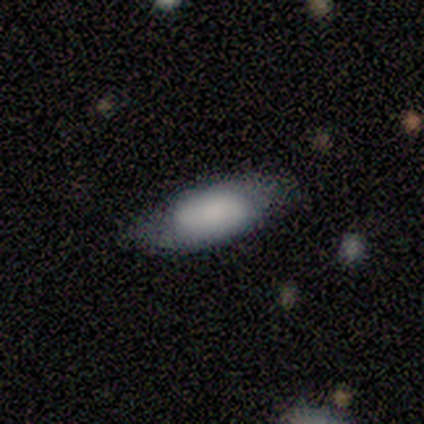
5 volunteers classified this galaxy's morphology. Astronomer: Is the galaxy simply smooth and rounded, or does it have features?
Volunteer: smooth — 100%.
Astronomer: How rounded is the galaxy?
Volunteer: in between — 100%.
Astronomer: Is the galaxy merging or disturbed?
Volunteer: none — 100%.